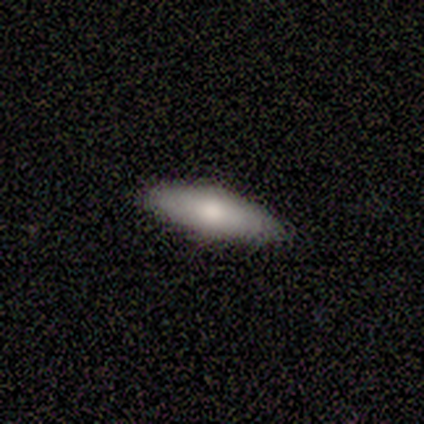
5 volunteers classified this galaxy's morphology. Overall: smooth (60%; featured or disk 40%). How rounded: in between (100%). Merging: none (60%; minor disturbance 40%).